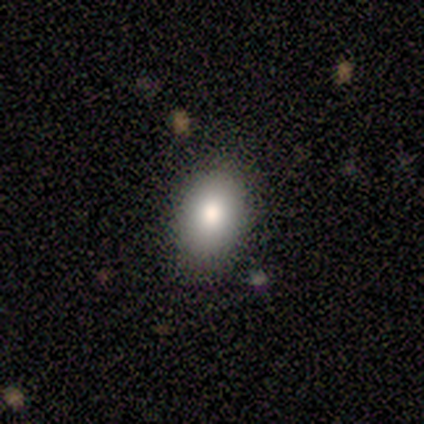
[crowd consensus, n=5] A smooth galaxy with no disk features (80%) that is in between round and cigar-shaped (75%). Merging: none (100%).